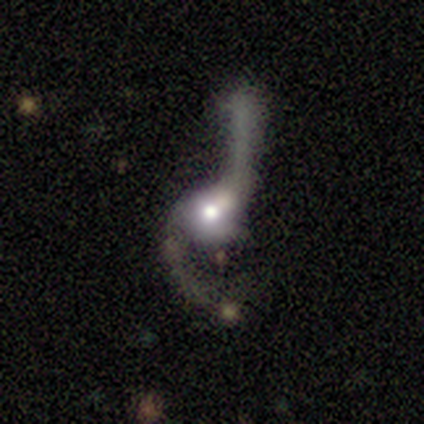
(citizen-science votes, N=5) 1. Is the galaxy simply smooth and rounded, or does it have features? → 80% featured or disk, 20% smooth, 0% star or artifact.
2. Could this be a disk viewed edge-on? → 100% no, 0% yes.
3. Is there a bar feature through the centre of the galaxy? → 75% weak, 25% no, 0% strong.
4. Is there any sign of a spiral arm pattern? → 100% yes, 0% no.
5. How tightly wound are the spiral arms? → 100% loose, 0% tight, 0% medium.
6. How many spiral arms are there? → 100% 2, 0% 1, 0% 3, 0% 4, 0% more than 4, 0% can't tell.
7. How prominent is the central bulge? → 75% moderate, 25% large, 0% dominant, 0% small, 0% none.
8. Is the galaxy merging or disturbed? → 40% none (tied), 40% merger (tied), 20% major disturbance, 0% minor disturbance.